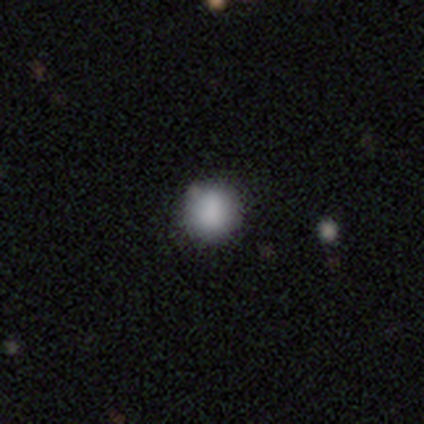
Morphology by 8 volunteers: This appears to be a smooth galaxy with no disk features (100%) that is round (100%). Merging: none (100%).